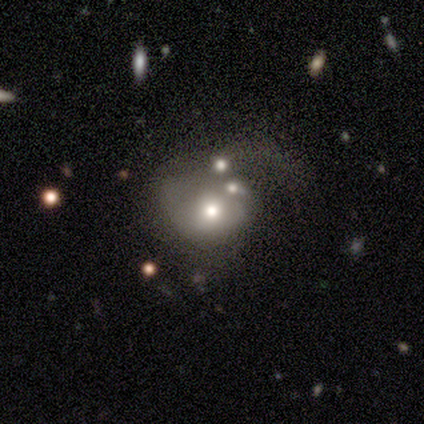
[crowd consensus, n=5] featured or disk 40% (tied), star or artifact 40% (tied), smooth 20%. Down the decision tree: edge-on disk — no (100%); bar — no (100%); spiral arms — yes (50%, tied with no); spiral arm count — 1 (100%); spiral winding — tight (100%); bulge size — moderate (100%); merging — merger (67%).